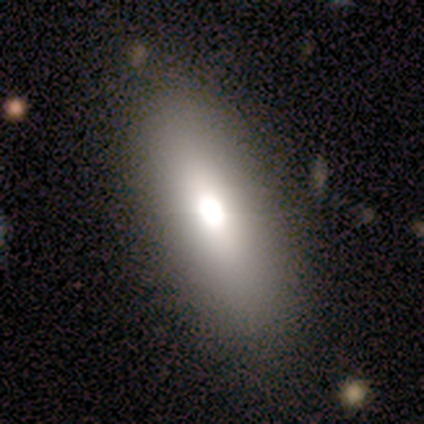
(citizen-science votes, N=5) Smooth or featured? smooth (60%)
How rounded? in between (67%)
Merging? none (75%)